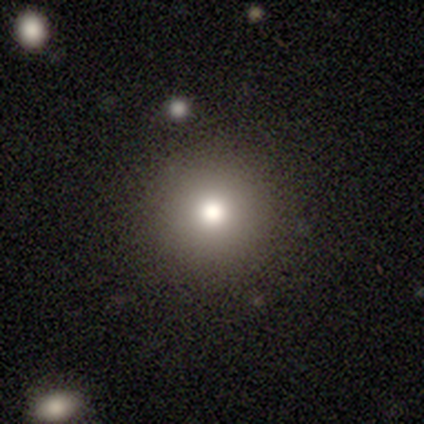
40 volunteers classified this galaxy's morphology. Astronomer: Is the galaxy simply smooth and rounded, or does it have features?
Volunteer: smooth — 68%.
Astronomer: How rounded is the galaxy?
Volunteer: round — 96%.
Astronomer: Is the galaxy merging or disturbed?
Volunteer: none — 88%.